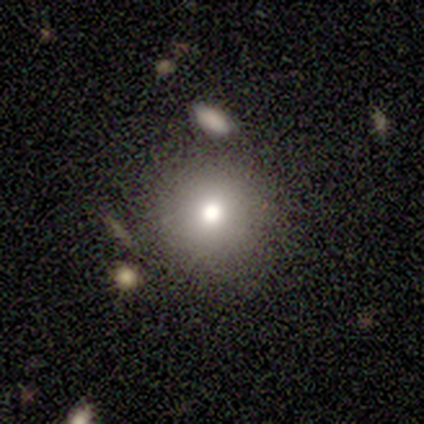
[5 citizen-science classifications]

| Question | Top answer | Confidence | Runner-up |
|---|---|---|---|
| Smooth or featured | smooth | 100% | — |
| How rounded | round | 100% | — |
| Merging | none | 60% | minor disturbance (40%) |